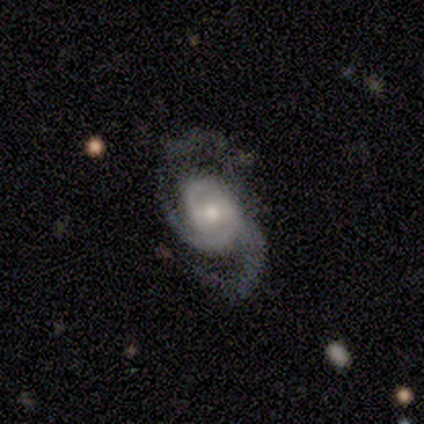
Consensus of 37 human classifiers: featured or disk 89%, smooth 11%, star or artifact 0%. Down the decision tree: edge-on disk — no (100%); bar — weak (45%); spiral arms — yes (94%); spiral arm count — 2 (71%); spiral winding — medium (52%); bulge size — moderate (52%); merging — none (62%).